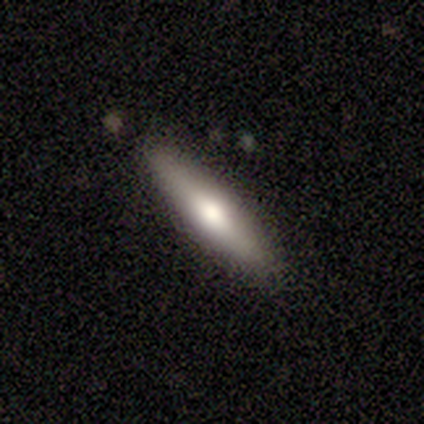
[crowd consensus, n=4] This appears to be a smooth galaxy with no disk features (100%) that is cigar-shaped (75%). Merging: none (50%, tied with minor disturbance).